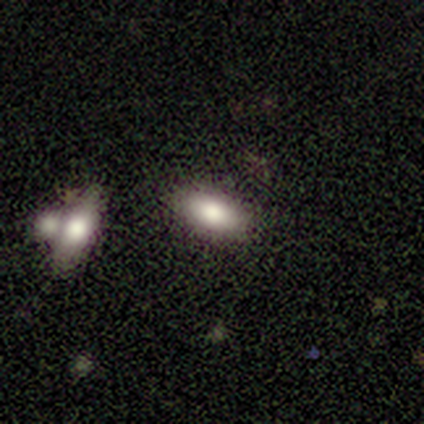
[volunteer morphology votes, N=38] Q: Smooth or featured?
A: smooth (79%); runner-up: featured or disk (11%)
Q: How rounded?
A: in between (97%); runner-up: round (3%)
Q: Merging?
A: none (76%); runner-up: merger (15%)